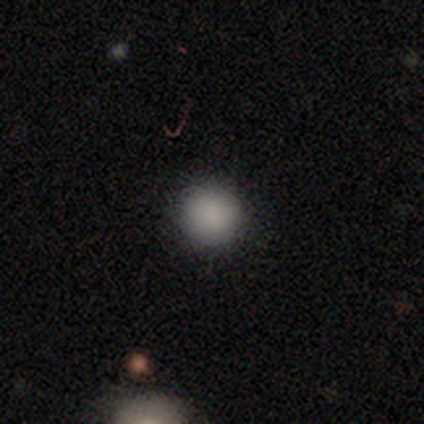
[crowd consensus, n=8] smooth 88%, featured or disk 12%, star or artifact 0%. Down the decision tree: how rounded — round (100%); merging — none (75%).